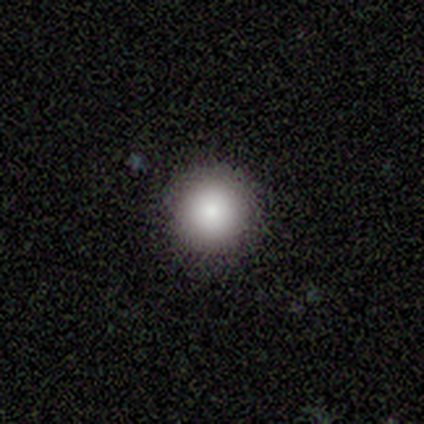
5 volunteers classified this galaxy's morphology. Smooth or featured?
  - smooth: 80% *
  - featured or disk: 20%
  - star or artifact: 0%
How rounded?
  - round: 100% *
  - in between: 0%
  - cigar-shaped: 0%
Merging?
  - none: 100% *
  - minor disturbance: 0%
  - major disturbance: 0%
  - merger: 0%